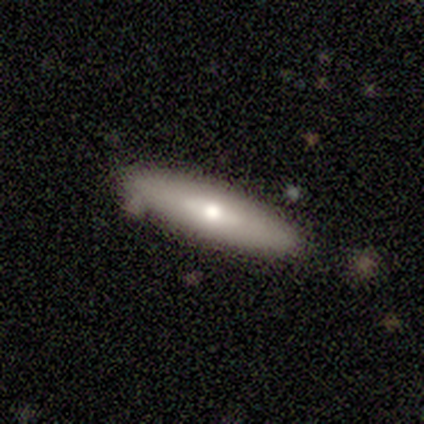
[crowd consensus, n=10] Morphology: type=smooth (70%); roundness=cigar-shaped (100%); merging=none (100%).